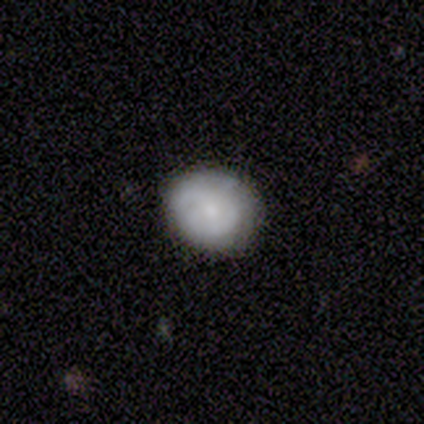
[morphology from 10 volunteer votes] Overall: smooth (70%). How rounded: round (86%). Merging: none (67%; minor disturbance 33%).